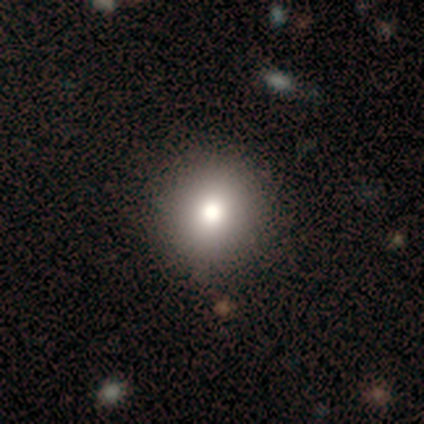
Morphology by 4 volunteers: Consensus on every question: smooth or featured — smooth (100%); how rounded — round (100%); merging — none (100%).